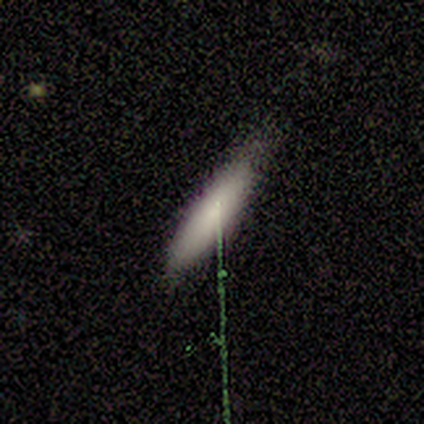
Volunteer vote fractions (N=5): Smooth or featured? 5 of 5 (100%) said smooth. How rounded? 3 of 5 (60%) said cigar-shaped. Merging? 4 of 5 (80%) said none.